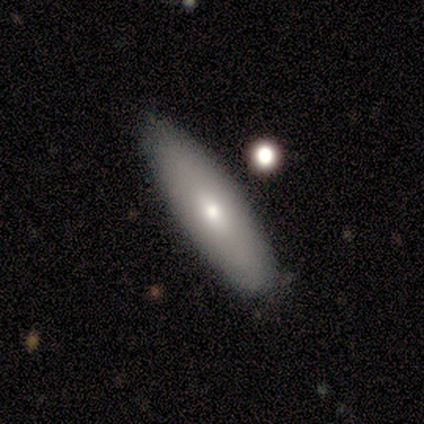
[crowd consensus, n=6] smooth-or-featured: smooth: 67% | featured or disk: 33% | star or artifact: 0%
  how-rounded: in between: 50% (tied) | cigar-shaped: 50% (tied) | round: 0%
  merging: none: 100% | minor disturbance: 0% | major disturbance: 0% | merger: 0%